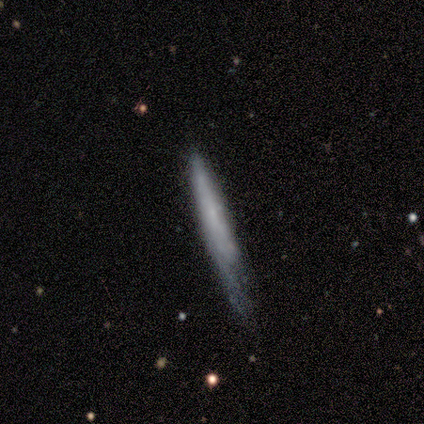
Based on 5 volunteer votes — A smooth galaxy with no disk features (60%) that is cigar-shaped (100%). Merging: none (75%).